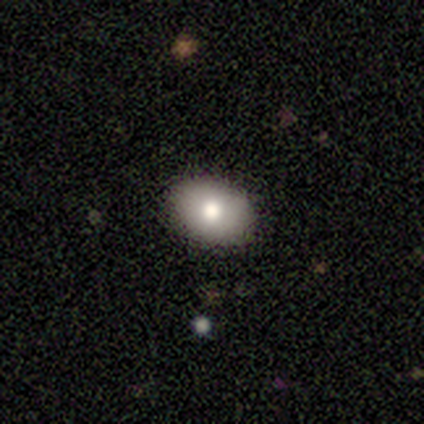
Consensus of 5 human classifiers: Smooth or featured? smooth (60%)
How rounded? in between (67%)
Merging? none (100%)